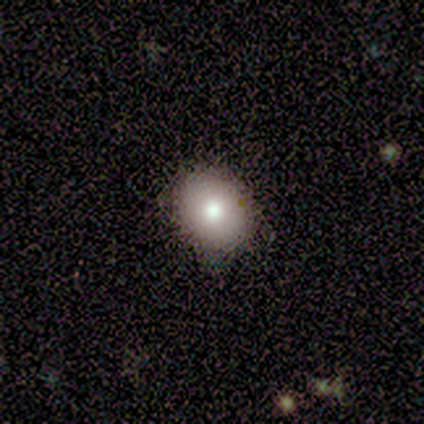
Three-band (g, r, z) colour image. It shows a smooth galaxy with no disk features (80%) that is in between round and cigar-shaped (75%). Merging: none (75%).